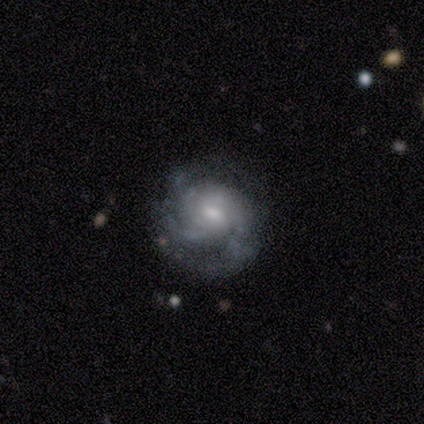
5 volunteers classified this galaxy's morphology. Smooth or featured? 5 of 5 (100%) said featured or disk. Edge-on disk? 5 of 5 (100%) said no. Bar? 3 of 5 (60%) said no. Spiral arms? 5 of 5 (100%) said yes. Spiral winding? 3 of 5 (60%) said loose. Spiral arm count? 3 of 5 (60%) said can't tell. Bulge size? 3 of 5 (60%) said small. Merging? 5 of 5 (100%) said none.